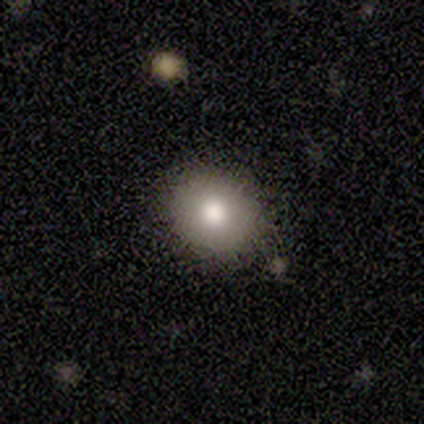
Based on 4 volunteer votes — smooth 75%, featured or disk 25%, star or artifact 0%. Down the decision tree: how rounded — in between (67%); merging — none (100%).